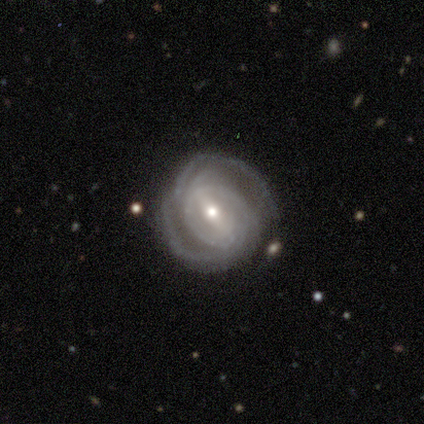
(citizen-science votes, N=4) featured or disk 100%, smooth 0%, star or artifact 0%. Down the decision tree: edge-on disk — no (100%); bar — weak (75%); spiral arms — yes (100%); spiral arm count — 1 (25%, tied with 2, 3 and 4); spiral winding — tight (75%); bulge size — moderate (50%, tied with small); merging — none (75%).